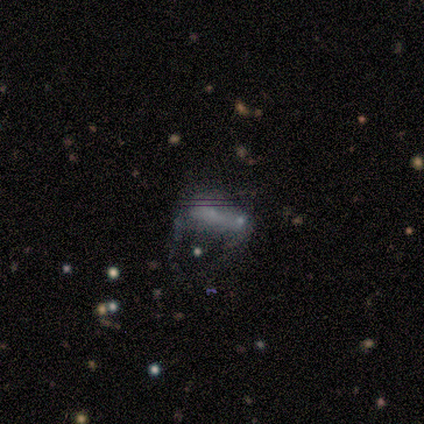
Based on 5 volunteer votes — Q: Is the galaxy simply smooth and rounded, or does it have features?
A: smooth — 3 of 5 (60%).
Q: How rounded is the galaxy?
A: in between — 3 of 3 (100%).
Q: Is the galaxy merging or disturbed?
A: merger — 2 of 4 (50%).